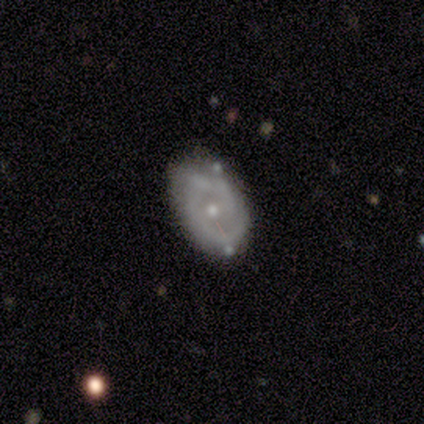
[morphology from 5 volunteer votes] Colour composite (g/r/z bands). It shows a featured or disk galaxy (80%) with a weak bar (50%, tied with no), 2 (50%, tied with can't tell) medium (100%) spiral arms (50%, tied with no) and a small central bulge (100%). Merging: none (80%).